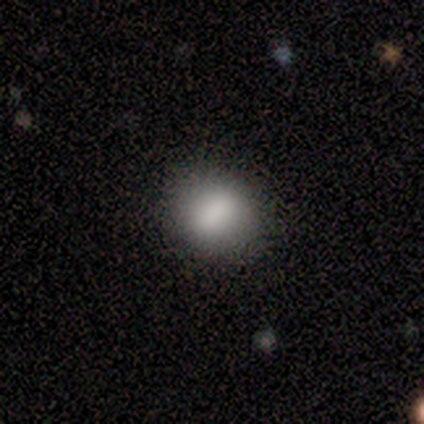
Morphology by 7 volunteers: smooth 86%, star or artifact 14%, featured or disk 0%. Down the decision tree: how rounded — round (50%, tied with in between); merging — none (83%).